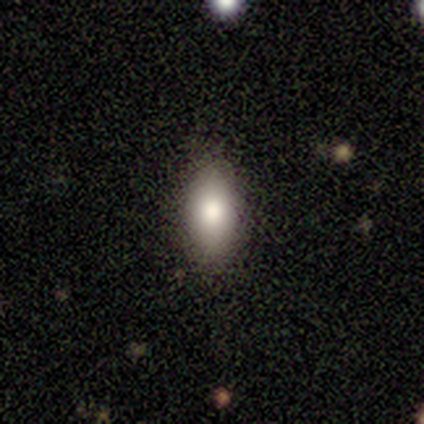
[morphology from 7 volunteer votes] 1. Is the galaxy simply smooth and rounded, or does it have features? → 57% smooth, 29% featured or disk, 14% star or artifact.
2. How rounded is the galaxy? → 100% in between, 0% round, 0% cigar-shaped.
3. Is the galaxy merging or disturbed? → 83% none, 17% minor disturbance, 0% major disturbance, 0% merger.